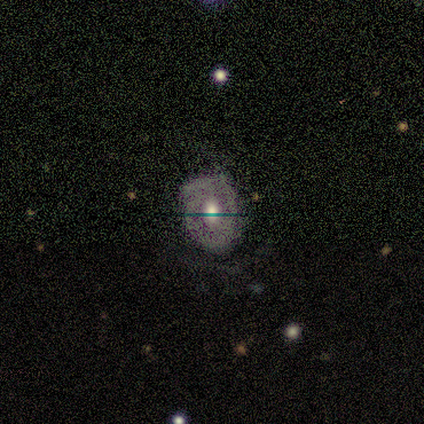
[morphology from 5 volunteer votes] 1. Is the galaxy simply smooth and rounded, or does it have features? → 80% featured or disk, 20% smooth, 0% star or artifact.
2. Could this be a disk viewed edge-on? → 75% no, 25% yes.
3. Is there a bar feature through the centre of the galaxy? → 67% no, 33% weak, 0% strong.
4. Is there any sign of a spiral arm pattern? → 100% yes, 0% no.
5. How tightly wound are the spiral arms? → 67% tight, 33% loose, 0% medium.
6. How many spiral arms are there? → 100% can't tell, 0% 1, 0% 2, 0% 3, 0% 4, 0% more than 4.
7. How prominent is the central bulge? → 100% moderate, 0% dominant, 0% large, 0% small, 0% none.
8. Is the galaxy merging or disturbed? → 100% none, 0% minor disturbance, 0% major disturbance, 0% merger.